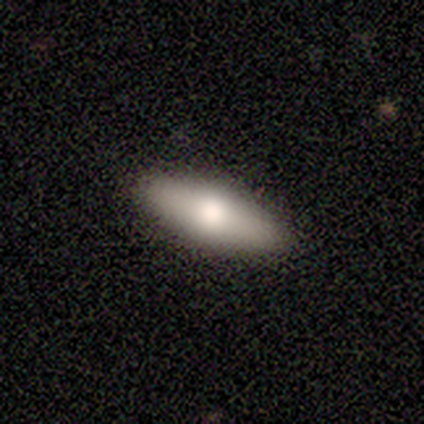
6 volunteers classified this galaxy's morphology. Smooth or featured? 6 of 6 (100%) said smooth. How rounded? 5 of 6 (83%) said in between. Merging? 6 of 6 (100%) said none.